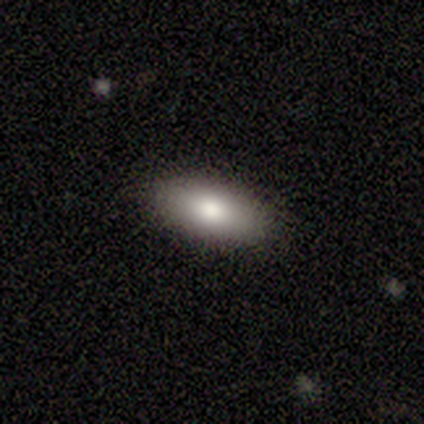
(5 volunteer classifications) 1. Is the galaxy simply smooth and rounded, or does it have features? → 80% smooth, 20% featured or disk, 0% star or artifact.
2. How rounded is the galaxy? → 75% in between, 25% cigar-shaped, 0% round.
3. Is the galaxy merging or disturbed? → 100% none, 0% minor disturbance, 0% major disturbance, 0% merger.